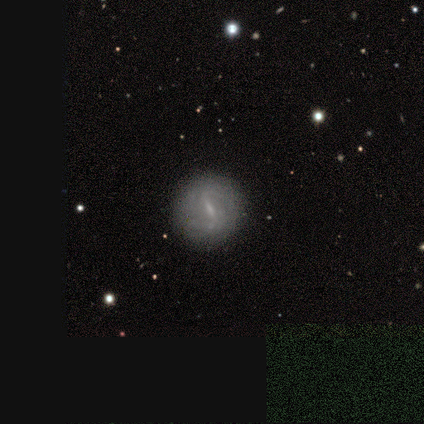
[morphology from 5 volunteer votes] smooth-or-featured: featured or disk: 100% | smooth: 0% | star or artifact: 0%
  disk-edge-on: no: 100% | yes: 0%
    bar: weak: 60% | strong: 40% | no: 0%
    has-spiral-arms: yes: 80% | no: 20%
      spiral-winding: medium: 50% (tied) | loose: 50% (tied) | tight: 0%
      spiral-arm-count: 2: 75% | can't tell: 25% | 1: 0% | 3: 0% | 4: 0% | more than 4: 0%
    bulge-size: small: 40% (tied) | none: 40% (tied) | moderate: 20% | dominant: 0% | large: 0%
  merging: none: 100% | minor disturbance: 0% | major disturbance: 0% | merger: 0%